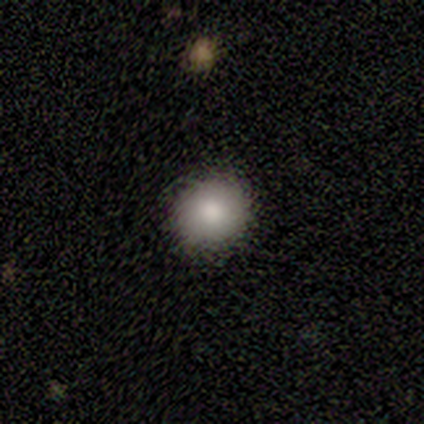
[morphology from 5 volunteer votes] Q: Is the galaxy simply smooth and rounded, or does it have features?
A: smooth — 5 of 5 (100%).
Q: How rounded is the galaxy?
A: round — 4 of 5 (80%).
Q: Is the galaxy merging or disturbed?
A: none — 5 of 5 (100%).